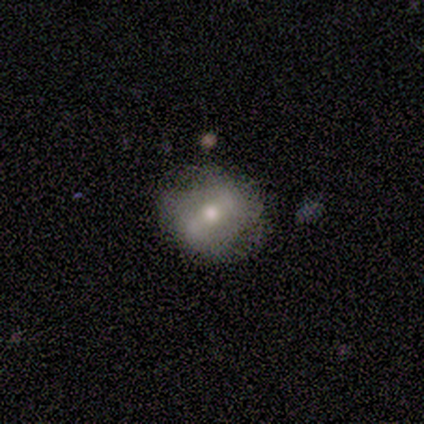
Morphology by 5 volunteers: A featured or disk galaxy (60%) with a weak bar (50%, tied with no), no spiral arms (100%) and a moderate central bulge (50%, tied with small). Merging: none (60%).